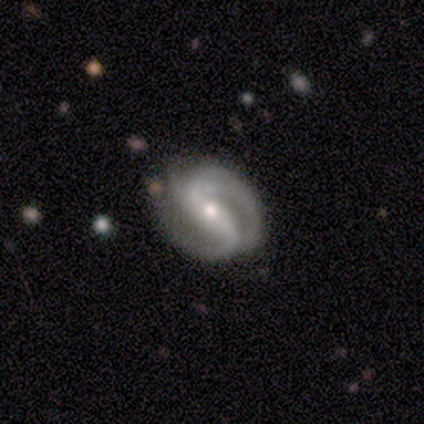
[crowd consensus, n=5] Smooth or featured? 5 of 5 (100%) said featured or disk. Edge-on disk? 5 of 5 (100%) said no. Bar? 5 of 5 (100%) said strong. Spiral arms? 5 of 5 (100%) said yes. Spiral winding? 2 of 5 (40%, tied with loose) said medium. Spiral arm count? 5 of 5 (100%) said 2. Bulge size? 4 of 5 (80%) said small. Merging? 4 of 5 (80%) said none.